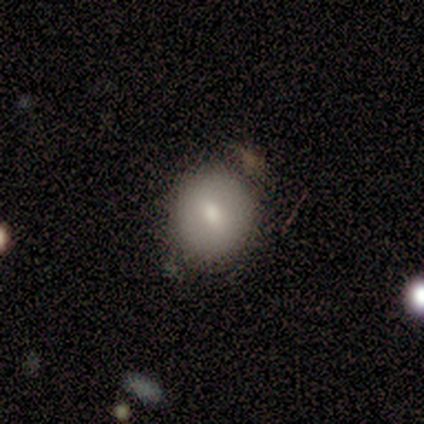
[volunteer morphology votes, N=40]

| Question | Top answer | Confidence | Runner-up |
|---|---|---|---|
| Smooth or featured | smooth | 70% | featured or disk (20%) |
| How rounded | round | 68% | in between (32%) |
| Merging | none | 75% | minor disturbance (19%) |